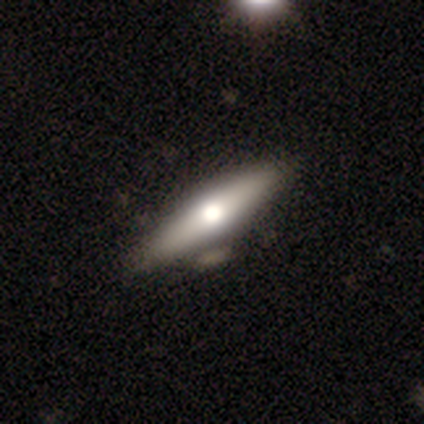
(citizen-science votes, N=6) featured or disk 83%, smooth 17%, star or artifact 0%. Down the decision tree: edge-on disk — yes (100%); edge-on bulge — rounded (80%); merging — none (100%).